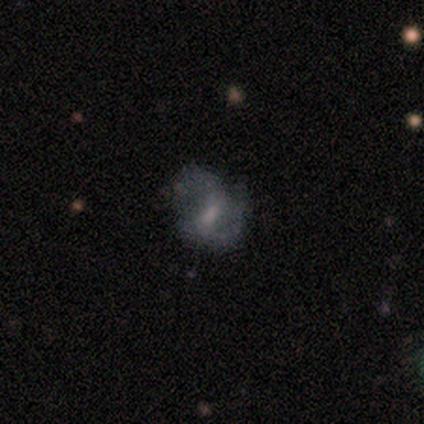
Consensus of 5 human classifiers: This is clearly a featured or disk galaxy (80%). It is clearly not viewed edge-on (100%). Bar: possibly no (50%). Spiral arm pattern: likely yes (75%). Spiral arm count: clearly 2 (100%). Spiral winding: clearly medium (100%). Central bulge: likely small (75%). Merging: likely none (60%).